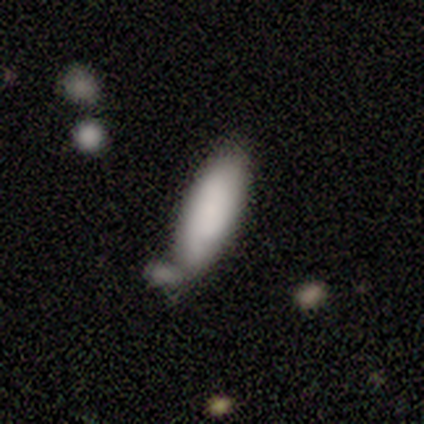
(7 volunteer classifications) smooth-or-featured: smooth: 57% | featured or disk: 43% | star or artifact: 0%
  how-rounded: in between: 75% | cigar-shaped: 25% | round: 0%
  merging: none: 57% | minor disturbance: 14% | major disturbance: 14% | merger: 14%